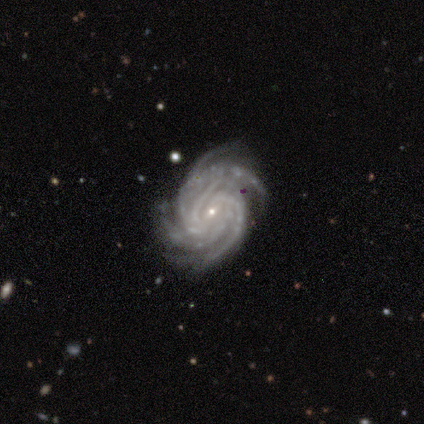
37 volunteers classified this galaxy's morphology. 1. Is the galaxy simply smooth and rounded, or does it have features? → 89% featured or disk, 8% star or artifact, 3% smooth.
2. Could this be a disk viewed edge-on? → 100% no, 0% yes.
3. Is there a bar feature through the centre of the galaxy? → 42% weak, 39% no, 18% strong.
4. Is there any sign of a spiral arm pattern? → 97% yes, 3% no.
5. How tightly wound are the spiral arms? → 72% tight, 25% medium, 3% loose.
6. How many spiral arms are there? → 44% 4, 28% more than 4, 19% can't tell, 9% 3, 0% 1, 0% 2.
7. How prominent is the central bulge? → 85% small, 15% moderate, 0% dominant, 0% large, 0% none.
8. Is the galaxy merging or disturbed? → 79% none, 18% minor disturbance, 3% major disturbance, 0% merger.